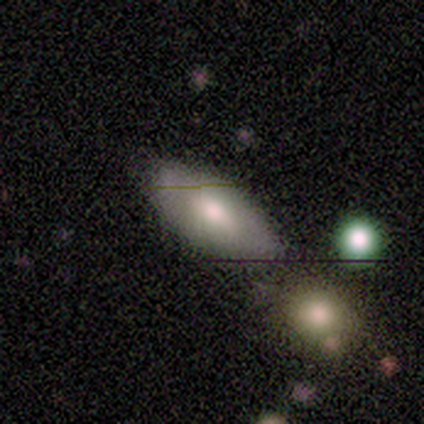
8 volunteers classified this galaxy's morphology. Smooth or featured? 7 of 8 (88%) said smooth. How rounded? 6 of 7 (86%) said in between. Merging? 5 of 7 (71%) said none.